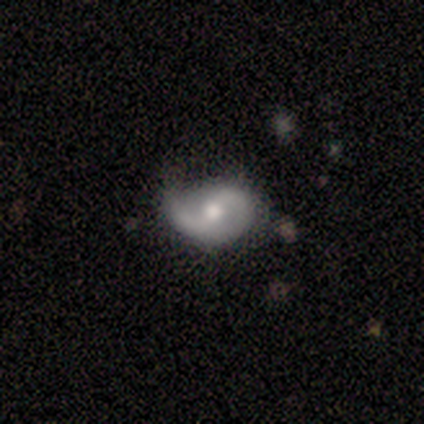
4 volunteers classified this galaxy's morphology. smooth_or_featured: featured or disk (p=0.75) [alt: smooth p=0.25]
disk_edge_on: no (p=1.00)
bar: strong (p=0.33) [tied with: weak p=0.33, no p=0.33]
has_spiral_arms: yes (p=1.00)
spiral_winding: loose (p=0.67) [alt: medium p=0.33]
spiral_arm_count: 2 (p=0.67) [alt: 1 p=0.33]
bulge_size: moderate (p=1.00)
merging: none (p=1.00)